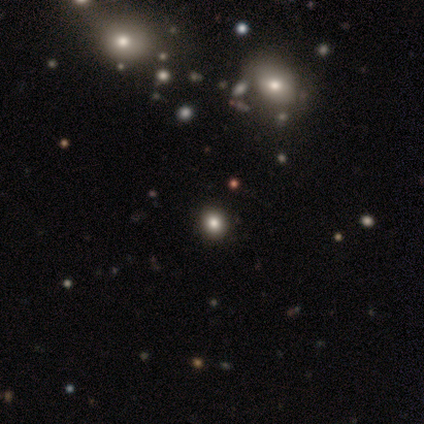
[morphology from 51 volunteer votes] Smooth or featured? 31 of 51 (61%) said smooth. How rounded? 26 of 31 (84%) said round. Merging? 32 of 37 (86%) said none.